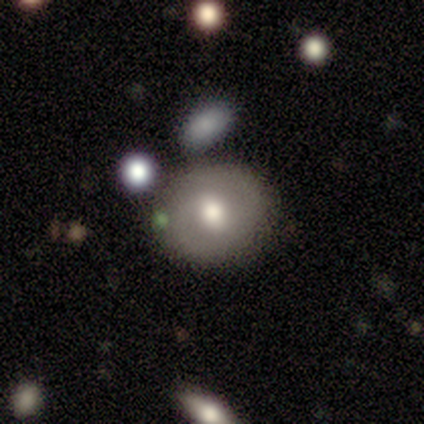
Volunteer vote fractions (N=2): This is possibly a smooth galaxy (50%, tied with featured or disk). How rounded: clearly round (100%). Merging: clearly none (100%).